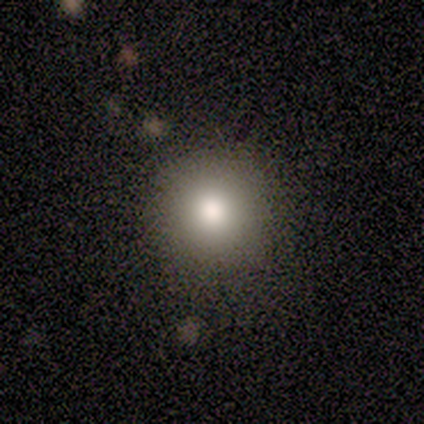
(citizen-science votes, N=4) A smooth galaxy with no disk features (50%, tied with star or artifact) that is round (100%).

Vote fractions:
- Smooth or featured? smooth: 50% (tied) / star or artifact: 50% (tied) / featured or disk: 0%
- How rounded? round: 100% / in between: 0% / cigar-shaped: 0%
- Merging? none: 50% (tied) / minor disturbance: 50% (tied) / major disturbance: 0% / merger: 0%